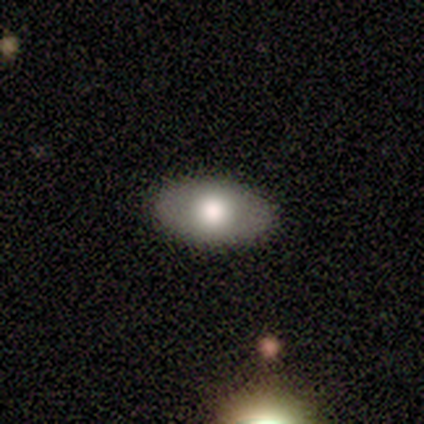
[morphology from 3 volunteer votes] Smooth or featured: featured or disk — 67% (smooth — 33%)
Edge-on disk: no — 100%
Bar: no — 100%
Spiral arms: no — 100%
Bulge size: large — 50% (tied with moderate — 50%)
Merging: none — 100%